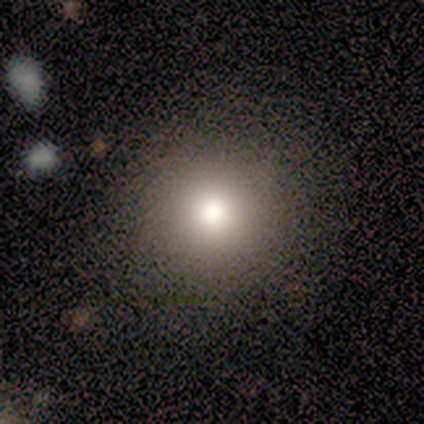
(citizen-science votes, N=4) smooth-or-featured: smooth: 100% | featured or disk: 0% | star or artifact: 0%
  how-rounded: round: 75% | in between: 25% | cigar-shaped: 0%
  merging: none: 75% | minor disturbance: 25% | major disturbance: 0% | merger: 0%